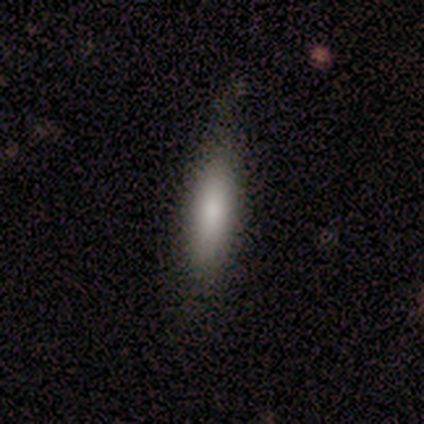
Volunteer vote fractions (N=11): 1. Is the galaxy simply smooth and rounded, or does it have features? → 55% smooth, 27% featured or disk, 18% star or artifact.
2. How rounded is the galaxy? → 83% cigar-shaped, 17% in between, 0% round.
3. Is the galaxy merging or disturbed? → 67% none, 33% minor disturbance, 0% major disturbance, 0% merger.